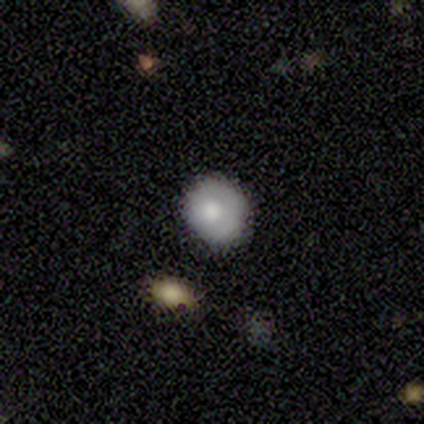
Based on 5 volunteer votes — smooth-or-featured: smooth: 60% | featured or disk: 40% | star or artifact: 0%
  how-rounded: round: 67% | in between: 33% | cigar-shaped: 0%
  merging: none: 80% | minor disturbance: 20% | major disturbance: 0% | merger: 0%